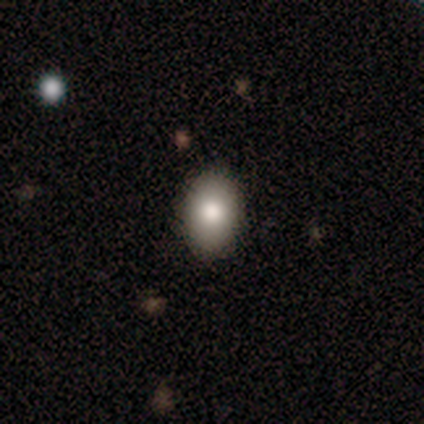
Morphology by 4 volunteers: Smooth or featured? 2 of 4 (50%, tied with star or artifact) said smooth. How rounded? 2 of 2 (100%) said in between. Merging? 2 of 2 (100%) said none.